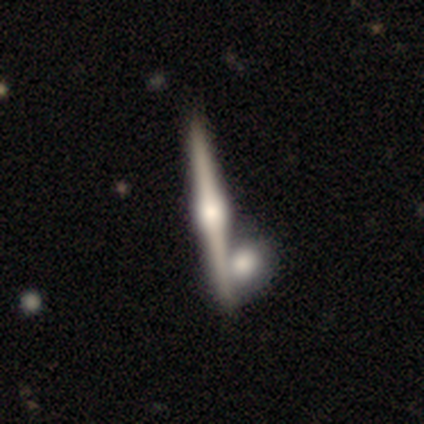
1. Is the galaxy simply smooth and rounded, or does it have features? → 80% featured or disk, 20% smooth, 0% star or artifact.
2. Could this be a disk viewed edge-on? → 100% yes, 0% no.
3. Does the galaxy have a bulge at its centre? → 100% rounded, 0% boxy, 0% none.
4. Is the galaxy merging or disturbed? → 80% merger, 20% none, 0% minor disturbance, 0% major disturbance.